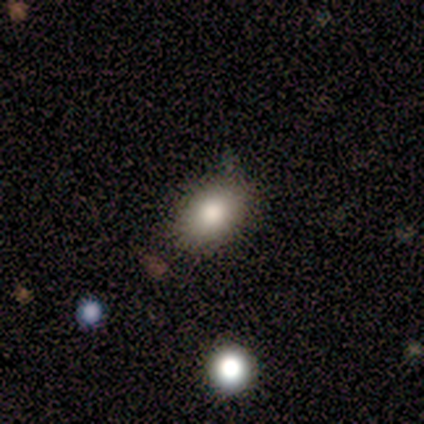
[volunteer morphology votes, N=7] smooth 86%, star or artifact 14%, featured or disk 0%. Down the decision tree: how rounded — in between (67%); merging — none (100%).